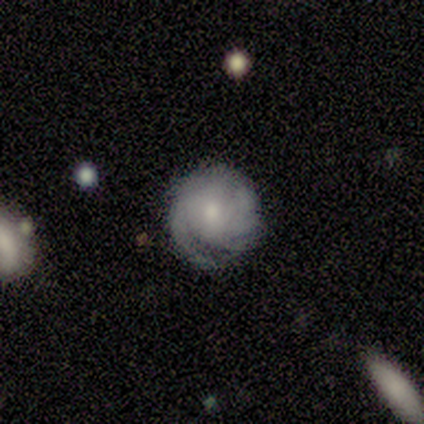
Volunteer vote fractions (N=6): Smooth or featured? featured or disk (83%)
Edge-on disk? no (100%)
Bar? no (60%)
Spiral arms? yes (100%)
Spiral winding? tight (80%)
Spiral arm count? can't tell (80%)
Bulge size? moderate (60%)
Merging? none (83%)